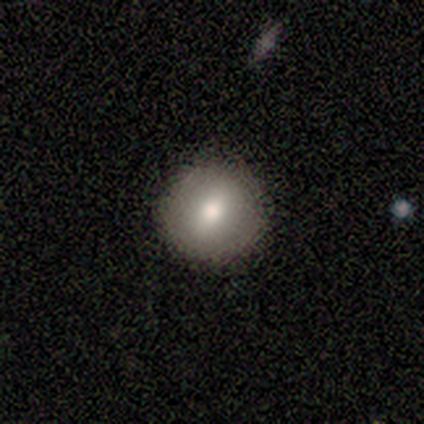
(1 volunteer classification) Q: Smooth or featured?
A: smooth (100%)
Q: How rounded?
A: round (100%)
Q: Merging?
A: none (100%)